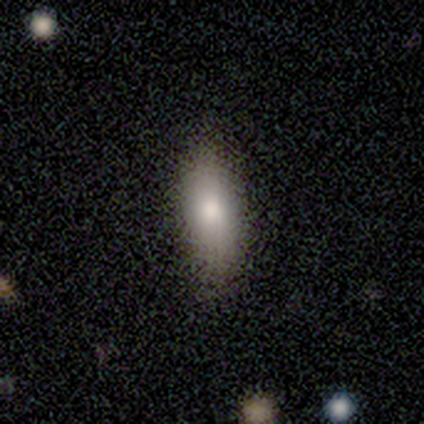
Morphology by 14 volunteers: smooth-or-featured: smooth: 64% | featured or disk: 29% | star or artifact: 7%
  how-rounded: cigar-shaped: 56% | in between: 44% | round: 0%
  merging: none: 77% | minor disturbance: 23% | major disturbance: 0% | merger: 0%